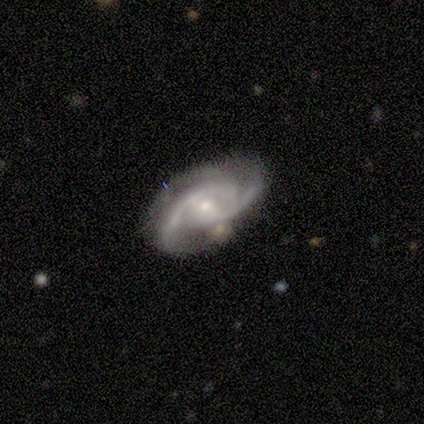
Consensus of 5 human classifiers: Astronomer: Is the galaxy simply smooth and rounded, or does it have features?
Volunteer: featured or disk — 100%.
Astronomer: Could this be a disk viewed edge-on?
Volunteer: no — 100%.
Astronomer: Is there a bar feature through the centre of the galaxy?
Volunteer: no — 80%.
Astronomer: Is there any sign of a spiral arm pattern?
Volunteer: yes — 100%.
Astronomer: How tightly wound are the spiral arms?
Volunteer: medium — 80%.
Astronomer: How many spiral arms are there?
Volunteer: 2 — 60%.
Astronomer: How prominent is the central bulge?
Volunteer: small — 100%.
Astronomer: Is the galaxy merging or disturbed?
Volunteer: none — 80%.